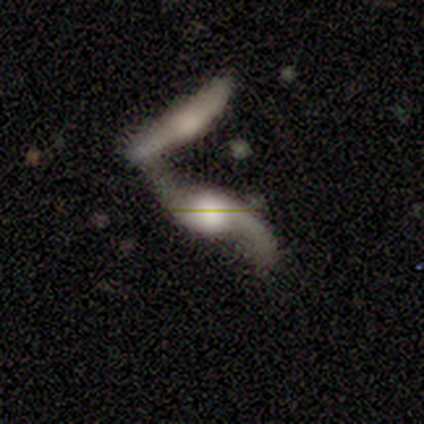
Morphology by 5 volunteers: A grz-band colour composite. It shows a featured or disk galaxy (60%) with no bar (100%), 2 (100%) loose (100%) spiral arms (100%) and a moderate central bulge (50%, tied with small). Merging: merger (100%).